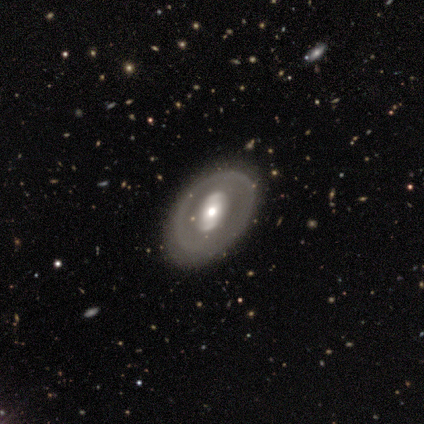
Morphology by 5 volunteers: Overall: featured or disk (80%). Edge-on disk: no (75%). Bar: strong (33%, tied with weak and no). Spiral arms: yes (67%; no 33%). Spiral arm count: 2 (100%). Spiral winding: tight (50%, tied with medium). Bulge size: moderate (67%; large 33%). Merging: none (40%, tied with minor disturbance).